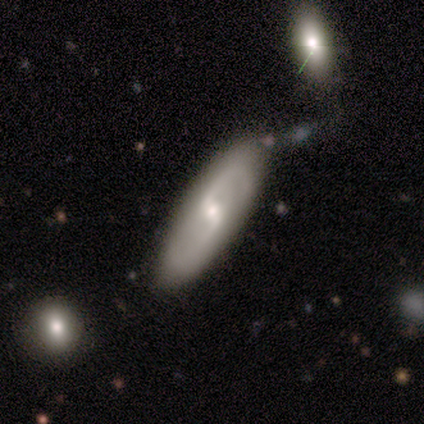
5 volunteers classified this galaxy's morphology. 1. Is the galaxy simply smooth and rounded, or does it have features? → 60% featured or disk, 20% smooth, 20% star or artifact.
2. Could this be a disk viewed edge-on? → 67% no, 33% yes.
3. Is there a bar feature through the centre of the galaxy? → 50% weak (tied), 50% no (tied), 0% strong.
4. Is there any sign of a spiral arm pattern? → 100% yes, 0% no.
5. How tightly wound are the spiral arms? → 50% medium (tied), 50% loose (tied), 0% tight.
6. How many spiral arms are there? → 100% 2, 0% 1, 0% 3, 0% 4, 0% more than 4, 0% can't tell.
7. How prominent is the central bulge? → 100% small, 0% dominant, 0% large, 0% moderate, 0% none.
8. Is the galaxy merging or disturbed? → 50% none (tied), 50% minor disturbance (tied), 0% major disturbance, 0% merger.